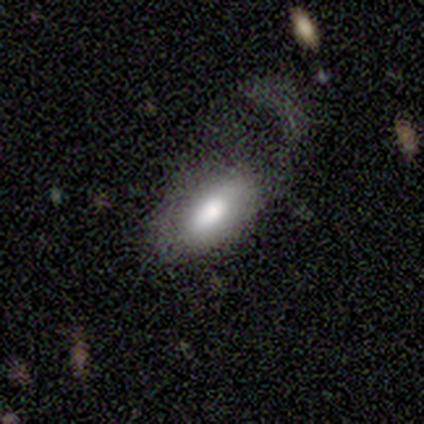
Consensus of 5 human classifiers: Volunteers were most divided on "merging": major disturbance: 60%, none: 20%, minor disturbance: 20%, merger: 0%. More confident: how rounded — in between (100%); smooth or featured — smooth (80%).